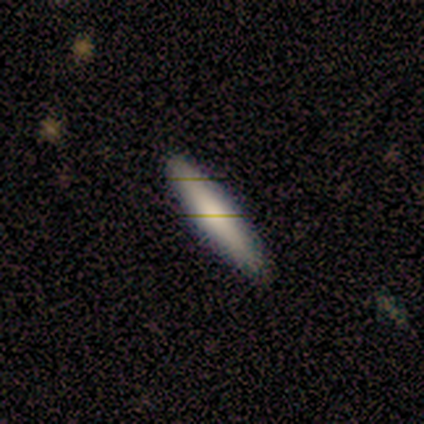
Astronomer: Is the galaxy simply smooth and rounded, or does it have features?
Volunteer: smooth — 62%.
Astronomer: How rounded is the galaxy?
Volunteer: cigar-shaped — 100%.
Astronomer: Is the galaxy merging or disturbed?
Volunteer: none — 88%.